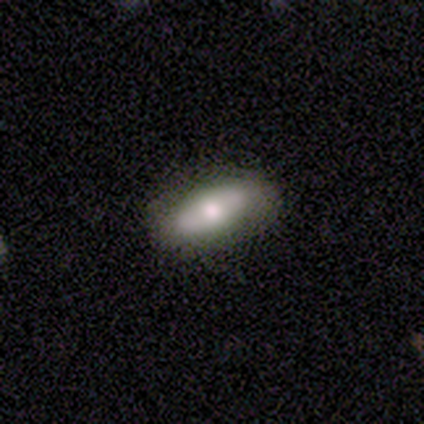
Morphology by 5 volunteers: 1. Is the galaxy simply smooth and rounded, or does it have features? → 80% smooth, 20% featured or disk, 0% star or artifact.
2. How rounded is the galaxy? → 100% in between, 0% round, 0% cigar-shaped.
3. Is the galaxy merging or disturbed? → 100% none, 0% minor disturbance, 0% major disturbance, 0% merger.